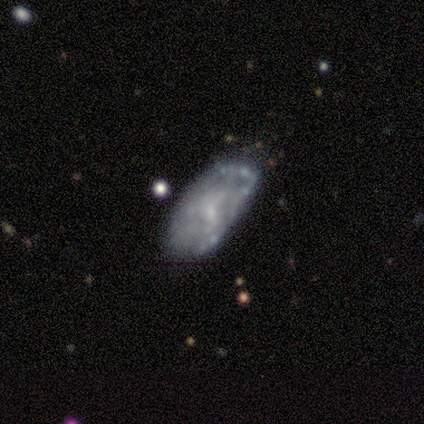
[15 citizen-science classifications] Overall: featured or disk (73%). Edge-on disk: no (100%). Bar: no (91%). Spiral arms: no (82%). Bulge size: small (64%; moderate 27%). Merging: none (40%; minor disturbance 33%).